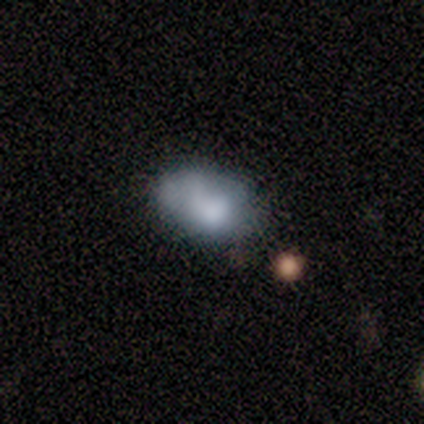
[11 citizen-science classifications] A smooth galaxy with no disk features (45%) that is in between round and cigar-shaped (100%). Merging: none (33%, tied with major disturbance).